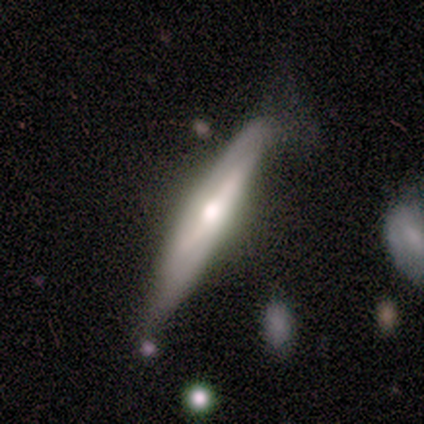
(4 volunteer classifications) Smooth or featured: featured or disk — 75% (smooth — 25%)
Edge-on disk: yes — 100%
Edge-on bulge: rounded — 100%
Merging: none — 75% (minor disturbance — 25%)